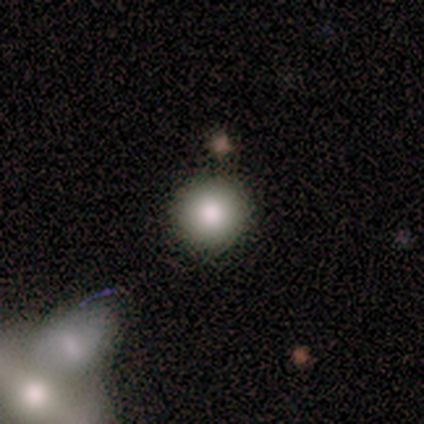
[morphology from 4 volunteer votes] A smooth galaxy with no disk features (50%, tied with featured or disk) that is round (100%). Merging: none (75%).